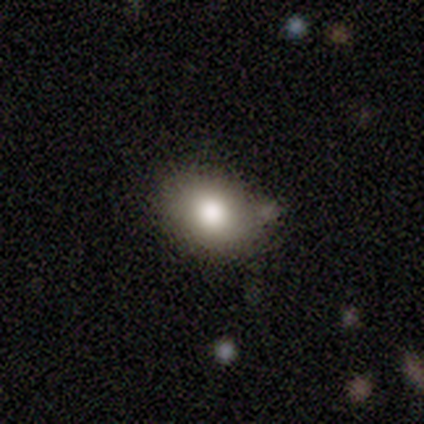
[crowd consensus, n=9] This is likely a smooth galaxy (78%). How rounded: possibly in between (57%). Merging: likely none (75%).